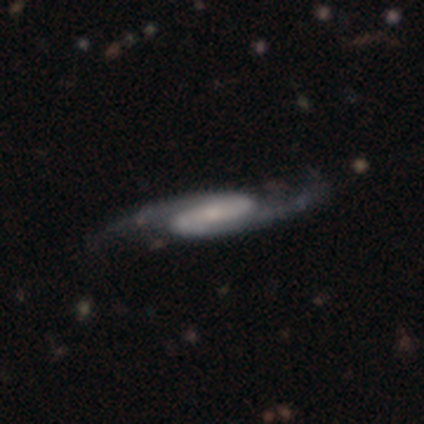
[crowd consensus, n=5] Smooth or featured: featured or disk — 100%
Edge-on disk: no — 100%
Bar: strong — 80% (weak — 20%)
Spiral arms: yes — 80% (no — 20%)
Spiral winding: medium — 75% (loose — 25%)
Spiral arm count: 2 — 100%
Bulge size: moderate — 60% (large — 20%)
Merging: none — 80% (minor disturbance — 20%)